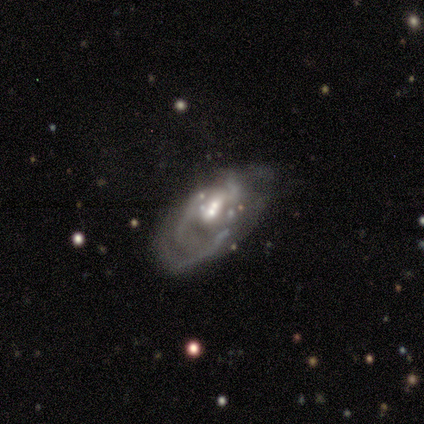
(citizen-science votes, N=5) Volunteers were most divided on "spiral arm count" (4-way tie): 2: 25%, 3: 25%, 4: 25%, can't tell: 25%, 1: 0%, more than 4: 0%. More confident: smooth or featured — featured or disk (100%); edge-on disk — no (100%); spiral arms — yes (80%); bulge size — moderate (80%); spiral winding — tight (75%); bar — weak (60%); merging — none (60%).